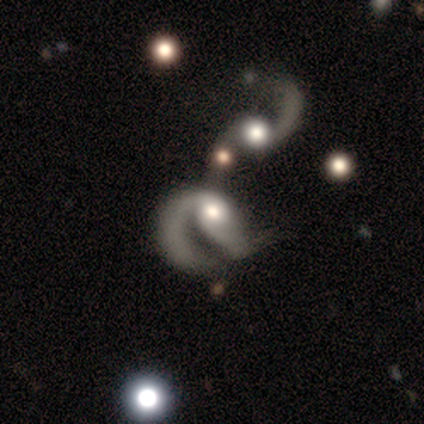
Q: Smooth or featured?
A: featured or disk (100%)
Q: Edge-on disk?
A: no (100%)
Q: Bar?
A: no (75%); runner-up: weak (25%)
Q: Spiral arms?
A: yes (75%); runner-up: no (25%)
Q: Spiral winding?
A: medium (67%); runner-up: loose (33%)
Q: Spiral arm count?
A: 2 (67%); runner-up: 1 (33%)
Q: Bulge size?
A: large (50%); runner-up: moderate (25%)
Q: Merging?
A: major disturbance (50%); tied with: merger (50%)